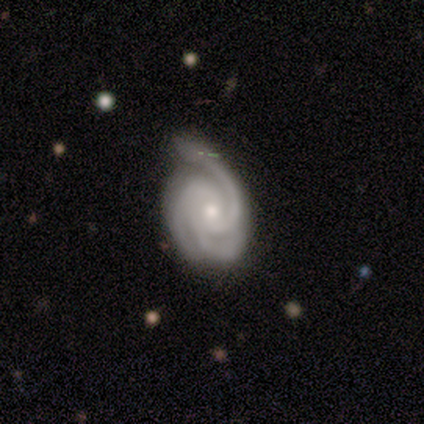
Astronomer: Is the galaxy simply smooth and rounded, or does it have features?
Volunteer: featured or disk — 93%.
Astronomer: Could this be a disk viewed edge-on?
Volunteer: no — 100%.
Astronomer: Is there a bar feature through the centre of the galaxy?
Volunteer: no — 77%.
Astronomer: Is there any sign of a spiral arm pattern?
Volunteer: yes — 100%.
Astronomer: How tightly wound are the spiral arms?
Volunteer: tight — 77%.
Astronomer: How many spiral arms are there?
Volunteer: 3 — 100%.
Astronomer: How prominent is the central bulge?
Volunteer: moderate — 54% (runner-up: small, 46%).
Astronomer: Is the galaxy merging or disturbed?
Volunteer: none — 71%.